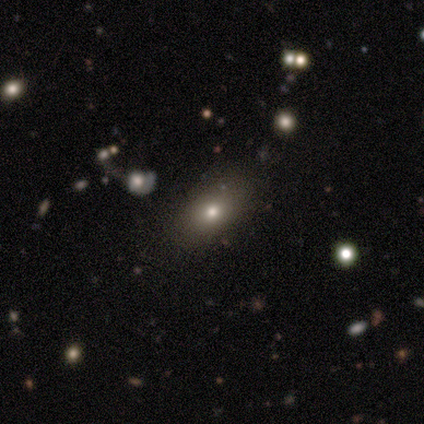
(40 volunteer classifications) Smooth or featured: smooth — 65% (featured or disk — 18%)
How rounded: in between — 77% (round — 19%)
Merging: none — 79% (minor disturbance — 15%)